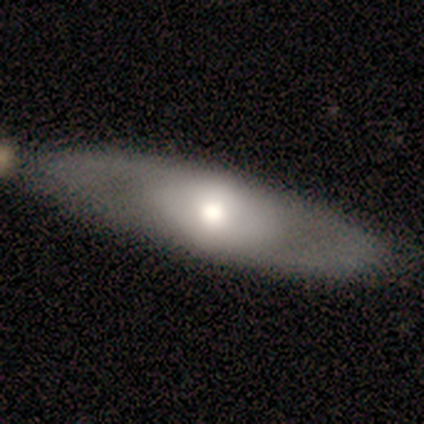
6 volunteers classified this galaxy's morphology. Volunteers were most divided on "bar" (3-way tie): strong: 33%, weak: 33%, no: 33%; "spiral winding" (2-way tie): tight: 50%, loose: 50%, medium: 0%; "spiral arm count" (2-way tie): 2: 50%, can't tell: 50%, 1: 0%, 3: 0%, 4: 0%, more than 4: 0%. More confident: merging — none (83%); edge-on disk — no (75%); smooth or featured — featured or disk (67%); spiral arms — yes (67%); bulge size — moderate (67%).